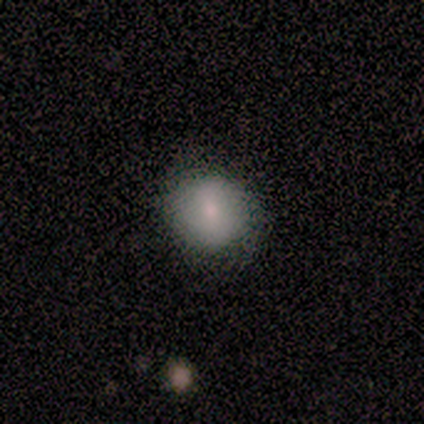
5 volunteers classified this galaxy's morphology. Smooth or featured? smooth (40%, tied with featured or disk)
How rounded? round (100%)
Merging? none (100%)